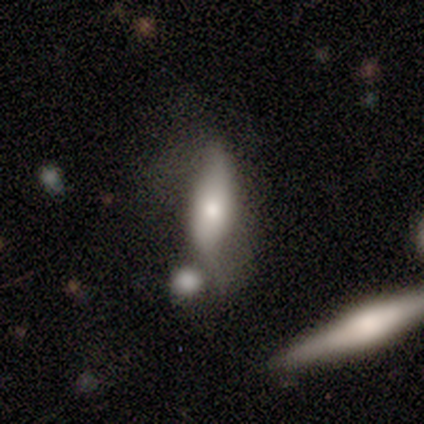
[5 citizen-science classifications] This is clearly a featured or disk galaxy (80%). It is possibly viewed edge-on (50%, tied with no). Edge-on bulge: possibly boxy (50%, tied with rounded). Merging: marginally minor disturbance (40%, tied with merger).